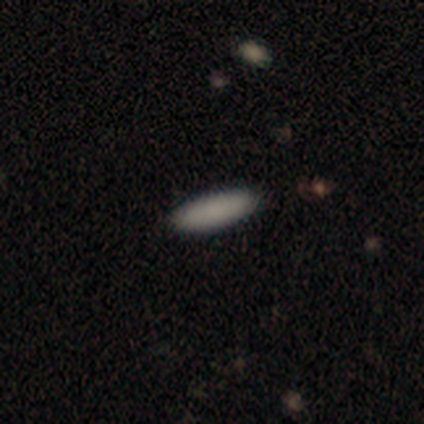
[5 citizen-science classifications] Overall: smooth (80%). How rounded: cigar-shaped (75%). Merging: none (75%).